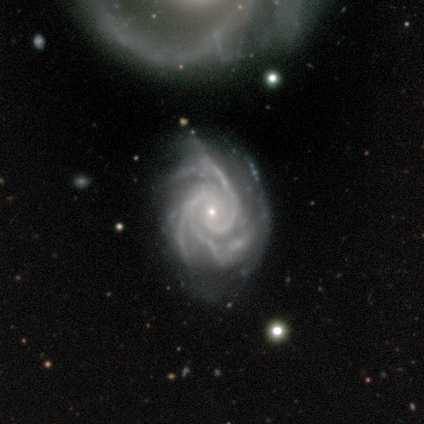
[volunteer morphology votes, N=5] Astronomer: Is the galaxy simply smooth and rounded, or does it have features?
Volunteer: featured or disk — 100%.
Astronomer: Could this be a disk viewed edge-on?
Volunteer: no — 100%.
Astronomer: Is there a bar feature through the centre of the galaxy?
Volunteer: no — 80%.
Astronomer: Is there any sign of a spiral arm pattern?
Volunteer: yes — 100%.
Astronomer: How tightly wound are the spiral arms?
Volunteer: tight — 80%.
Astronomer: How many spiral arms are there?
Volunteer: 2 — 40%, tied with 3 at 40%.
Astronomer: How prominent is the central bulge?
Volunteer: small — 100%.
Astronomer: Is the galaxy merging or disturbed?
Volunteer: minor disturbance — 40% (runner-up: none, 20%).